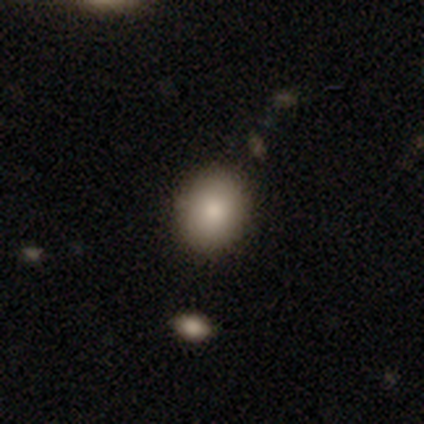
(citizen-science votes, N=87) A smooth galaxy with no disk features (82%) that is in between round and cigar-shaped (51%).

Vote fractions:
- Smooth or featured? smooth: 82% / featured or disk: 10% / star or artifact: 8%
- How rounded? in between: 51% / round: 48% / cigar-shaped: 1%
- Merging? none: 85% / minor disturbance: 14% / merger: 1% / major disturbance: 0%